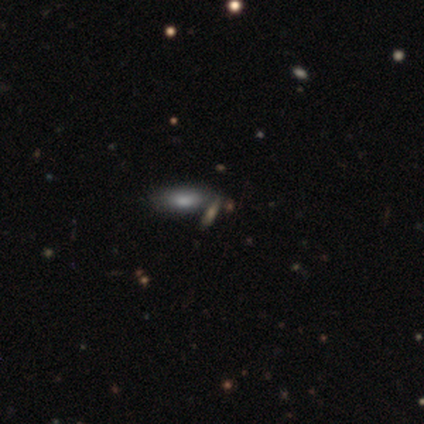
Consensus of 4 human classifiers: Smooth or featured? smooth (50%)
How rounded? in between (50%, tied with cigar-shaped)
Merging? minor disturbance (100%)